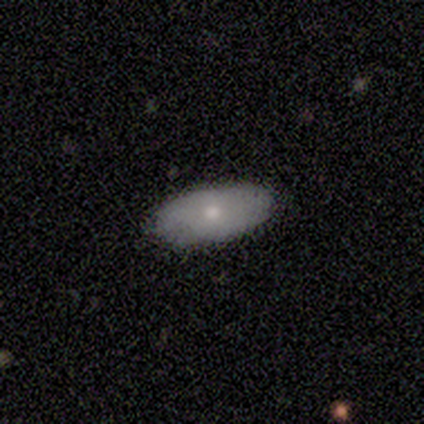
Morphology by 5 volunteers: Smooth or featured? featured or disk (60%)
Edge-on disk? no (100%)
Bar? no (100%)
Spiral arms? yes (67%)
Spiral winding? tight (50%, tied with loose)
Spiral arm count? can't tell (100%)
Bulge size? small (67%)
Merging? none (80%)